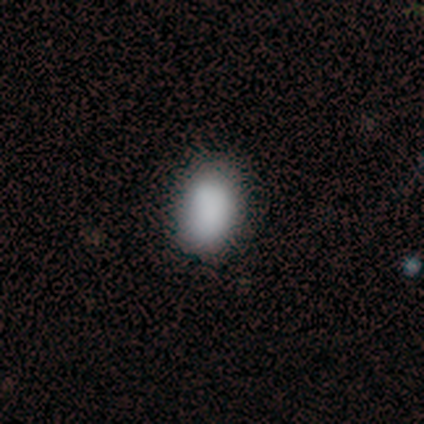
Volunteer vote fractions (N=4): Smooth or featured? 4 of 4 (100%) said smooth. How rounded? 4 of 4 (100%) said in between. Merging? 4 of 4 (100%) said none.